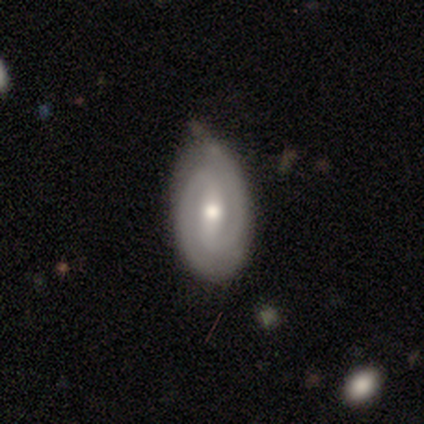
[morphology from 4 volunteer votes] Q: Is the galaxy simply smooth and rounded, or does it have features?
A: smooth — 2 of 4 (50%, tied with featured or disk).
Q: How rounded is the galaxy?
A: in between — 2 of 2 (100%).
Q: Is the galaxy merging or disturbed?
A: none — 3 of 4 (75%).